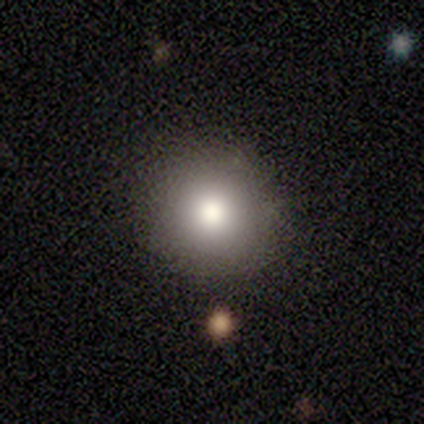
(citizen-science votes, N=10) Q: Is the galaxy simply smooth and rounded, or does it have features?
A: smooth — 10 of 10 (100%).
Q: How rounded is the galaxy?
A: round — 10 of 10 (100%).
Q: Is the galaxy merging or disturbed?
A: none — 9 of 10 (90%).